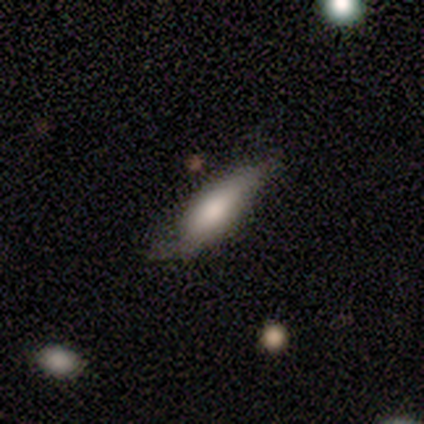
Q: Smooth or featured?
A: smooth (50%); tied with: featured or disk (50%)
Q: How rounded?
A: in between (100%)
Q: Merging?
A: minor disturbance (50%); tied with: major disturbance (50%)